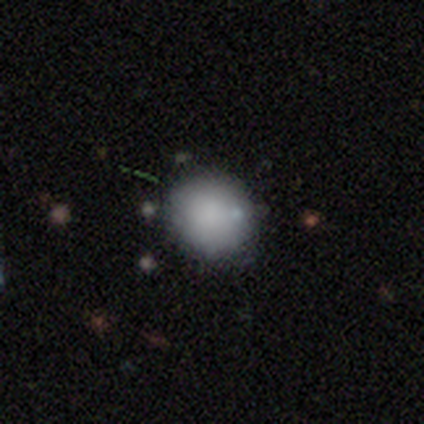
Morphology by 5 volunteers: type=smooth (100%); roundness=round (80%); merging=none (80%).